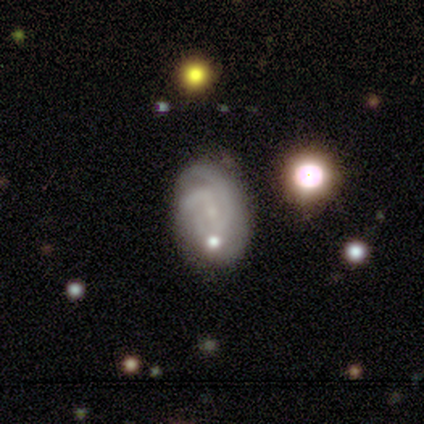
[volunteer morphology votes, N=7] Volunteers were most divided on "bulge size" (2-way tie): small: 40%, none: 40%, moderate: 20%, dominant: 0%, large: 0%; "merging" (2-way tie): none: 50%, merger: 50%, minor disturbance: 0%, major disturbance: 0%. More confident: edge-on disk — no (100%); bar — no (80%); spiral arms — yes (80%); spiral winding — tight (75%); smooth or featured — featured or disk (71%); spiral arm count — can't tell (50%).